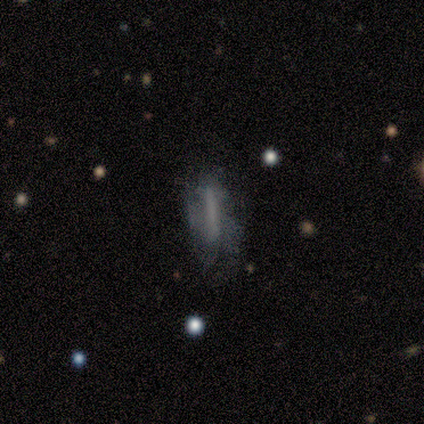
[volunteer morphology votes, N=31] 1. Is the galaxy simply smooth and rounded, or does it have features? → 68% featured or disk, 16% smooth, 16% star or artifact.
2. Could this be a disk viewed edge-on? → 76% no, 24% yes.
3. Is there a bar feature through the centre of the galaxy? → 62% strong, 19% weak, 19% no.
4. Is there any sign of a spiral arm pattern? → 69% no, 31% yes.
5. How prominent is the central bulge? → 81% none, 19% moderate, 0% dominant, 0% large, 0% small.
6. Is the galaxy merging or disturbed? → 50% minor disturbance, 38% none, 12% major disturbance, 0% merger.